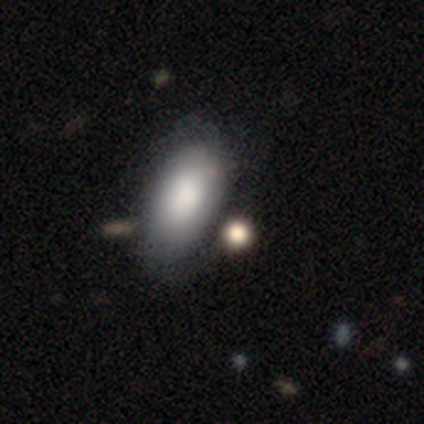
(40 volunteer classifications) Smooth or featured? smooth (80%)
How rounded? in between (88%)
Merging? none (50%)